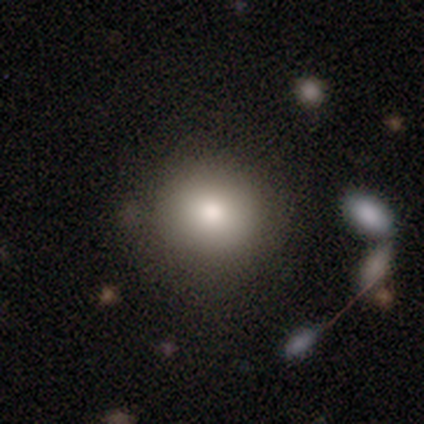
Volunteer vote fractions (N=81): This appears to be a smooth galaxy with no disk features (79%) that is round (91%). Merging: none (85%).